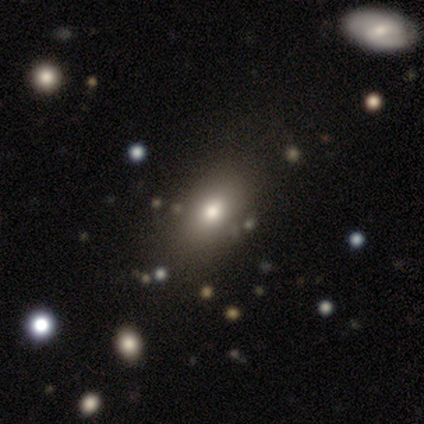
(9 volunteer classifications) Smooth or featured: smooth — 100%
How rounded: in between — 89% (round — 11%)
Merging: none — 100%